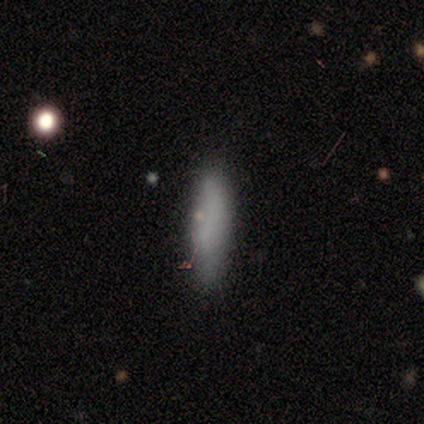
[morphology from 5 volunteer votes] Smooth or featured? 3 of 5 (60%) said smooth. How rounded? 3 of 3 (100%) said cigar-shaped. Merging? 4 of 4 (100%) said none.